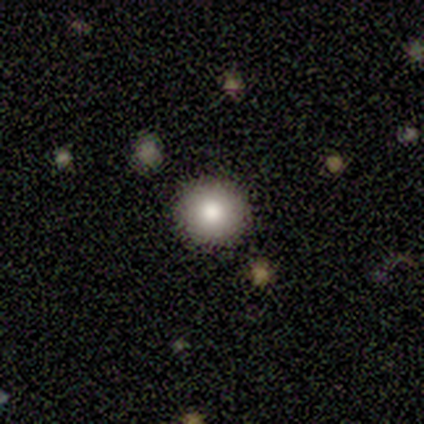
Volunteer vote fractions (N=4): smooth 75%, featured or disk 25%, star or artifact 0%. Down the decision tree: how rounded — round (100%); merging — none (100%).